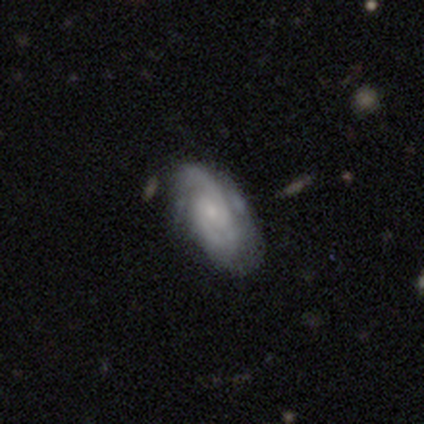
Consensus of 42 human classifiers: This is clearly a featured or disk galaxy (93%). It is clearly not viewed edge-on (95%). Bar: likely no (65%). Spiral arm pattern: clearly yes (95%). Spiral arm count: likely 2 (69%). Spiral winding: possibly tight (51%). Central bulge: likely small (68%). Merging: likely none (64%).